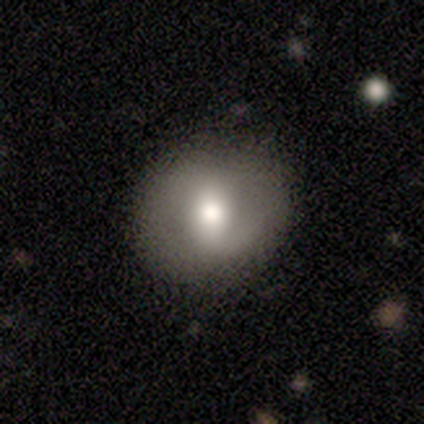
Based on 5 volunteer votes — Overall: smooth (60%; featured or disk 40%). How rounded: round (100%). Merging: none (100%).